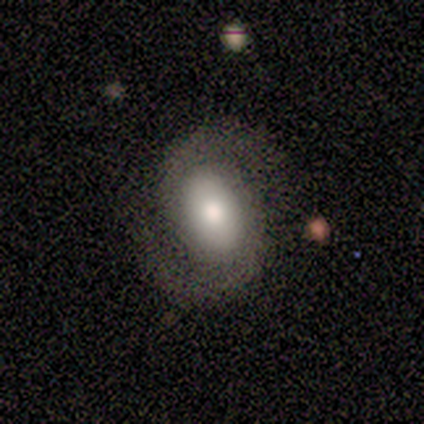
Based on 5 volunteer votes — featured or disk 80%, smooth 20%, star or artifact 0%. Down the decision tree: edge-on disk — no (100%); bar — no (75%); spiral arms — yes (75%); spiral arm count — 2 (100%); spiral winding — loose (67%); bulge size — large (50%, tied with moderate); merging — none (80%).